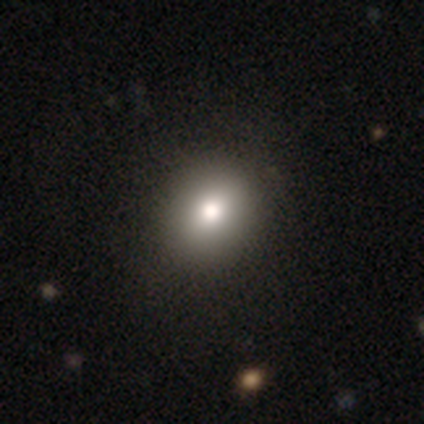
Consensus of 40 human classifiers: This is likely a smooth galaxy (62%). How rounded: likely round (68%). Merging: clearly none (87%).